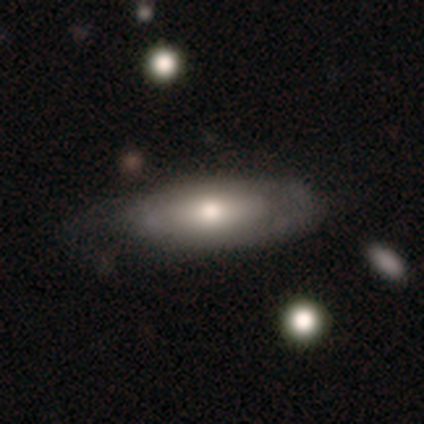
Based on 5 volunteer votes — Overall: featured or disk (80%). Edge-on disk: yes (50%, tied with no). Edge-on bulge: rounded (100%). Merging: none (60%; minor disturbance 20%).